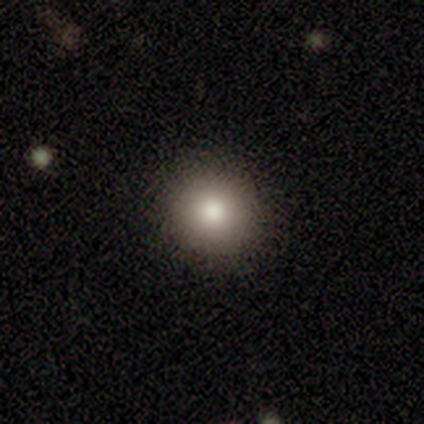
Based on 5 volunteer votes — smooth_or_featured: smooth (p=1.00)
how_rounded: round (p=1.00)
merging: none (p=0.80) [alt: minor disturbance p=0.20]